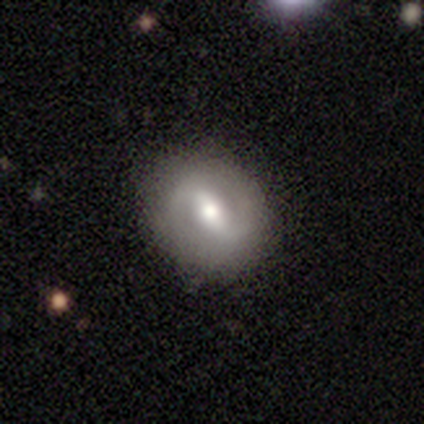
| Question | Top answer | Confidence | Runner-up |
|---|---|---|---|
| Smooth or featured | featured or disk | 100% | — |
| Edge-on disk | no | 100% | — |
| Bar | weak | 60% | strong (40%) |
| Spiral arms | yes | 80% | no (20%) |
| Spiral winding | medium | 50% | tied: loose (50%) |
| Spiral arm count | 2 | 100% | — |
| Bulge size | moderate | 60% | large (20%) |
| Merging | none | 100% | — |